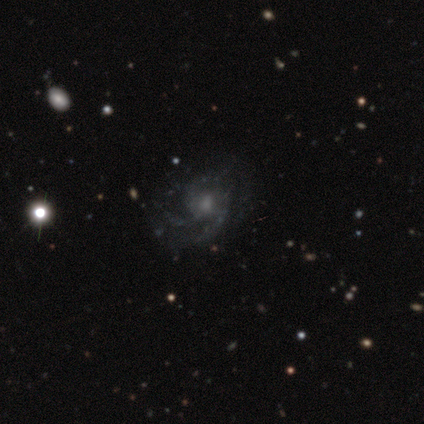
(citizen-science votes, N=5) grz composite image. It shows a featured or disk galaxy (80%) with no bar (75%), 4 (50%) medium (100%) spiral arms (100%) and a small central bulge (75%). Merging: none (75%).